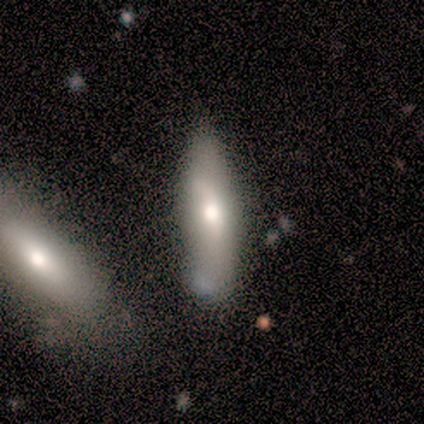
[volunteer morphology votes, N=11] smooth_or_featured: smooth (p=0.91) [alt: featured or disk p=0.09]
how_rounded: cigar-shaped (p=0.60) [alt: in between p=0.40]
merging: minor disturbance (p=0.55) [alt: none p=0.36]